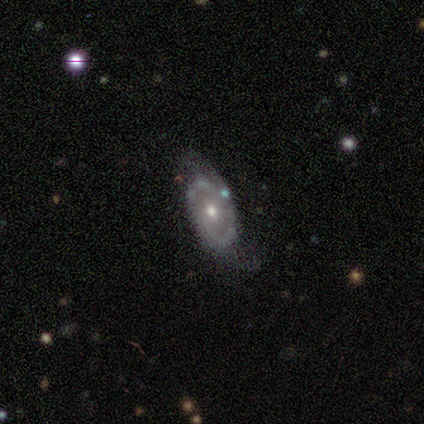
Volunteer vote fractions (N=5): A featured or disk galaxy (100%) with a weak bar (60%), 2 (100%) medium (80%) spiral arms (100%) and a moderate central bulge (40%, tied with small).

Vote fractions:
- Smooth or featured? featured or disk: 100% / smooth: 0% / star or artifact: 0%
- Edge-on disk? no: 100% / yes: 0%
- Bar? weak: 60% / no: 40% / strong: 0%
- Spiral arms? yes: 100% / no: 0%
- Spiral winding? medium: 80% / tight: 20% / loose: 0%
- Spiral arm count? 2: 100% / 1: 0% / 3: 0% / 4: 0% / more than 4: 0% / can't tell: 0%
- Bulge size? moderate: 40% (tied) / small: 40% (tied) / dominant: 20% / large: 0% / none: 0%
- Merging? none: 40% (tied) / minor disturbance: 40% (tied) / major disturbance: 20% / merger: 0%